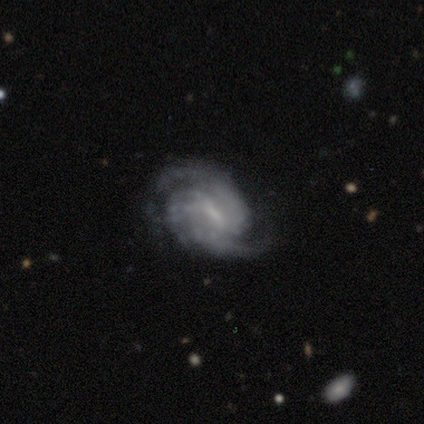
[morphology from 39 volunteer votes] smooth_or_featured: featured or disk (p=0.95) [alt: smooth p=0.03]
disk_edge_on: no (p=0.97) [alt: yes p=0.03]
bar: weak (p=0.58) [alt: strong p=0.22]
has_spiral_arms: yes (p=0.97) [alt: no p=0.03]
spiral_winding: tight (p=0.60) [alt: medium p=0.29]
spiral_arm_count: 2 (p=0.46) [alt: 3 p=0.40]
bulge_size: small (p=0.44) [alt: none p=0.31]
merging: none (p=0.74) [alt: minor disturbance p=0.18]